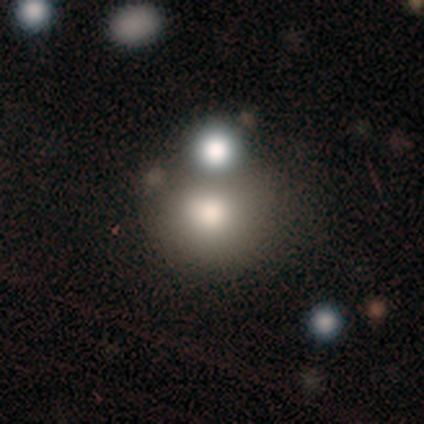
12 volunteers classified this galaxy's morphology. This appears to be a smooth galaxy with no disk features (67%) that is round (88%). Merging: none (73%).